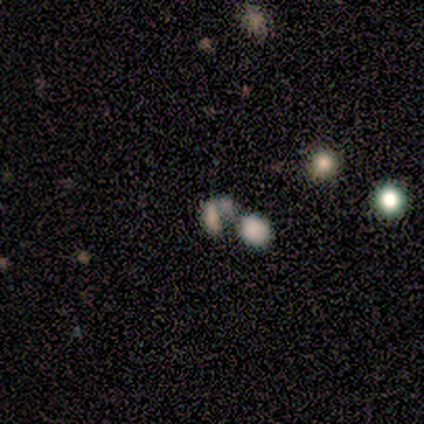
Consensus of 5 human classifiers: This is clearly a smooth galaxy (80%). How rounded: likely in between (75%). Merging: possibly minor disturbance (50%, tied with merger).